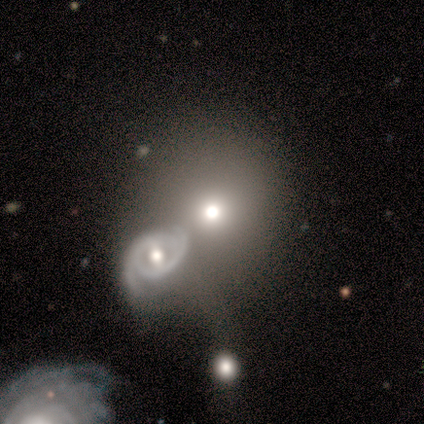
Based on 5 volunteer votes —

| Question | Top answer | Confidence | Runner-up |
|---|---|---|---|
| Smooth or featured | featured or disk | 60% | smooth (40%) |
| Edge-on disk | no | 100% | — |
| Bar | weak | 67% | no (33%) |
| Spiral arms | yes | 67% | no (33%) |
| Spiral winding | medium | 100% | — |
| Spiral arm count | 2 | 100% | — |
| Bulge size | moderate | 100% | — |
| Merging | none | 60% | minor disturbance (40%) |